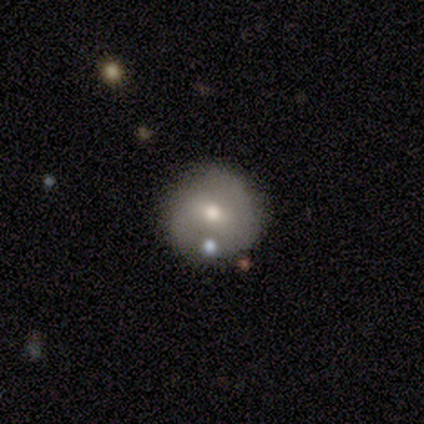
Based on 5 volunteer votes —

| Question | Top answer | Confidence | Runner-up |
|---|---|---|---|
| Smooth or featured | smooth | 80% | star or artifact (20%) |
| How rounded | round | 100% | — |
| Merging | none | 100% | — |